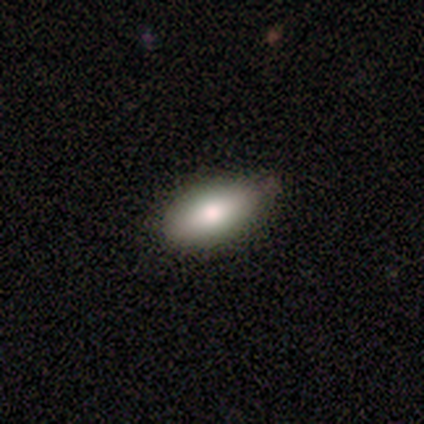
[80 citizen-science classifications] Morphology: type=smooth (76%); roundness=in between (90%); merging=none (43%).